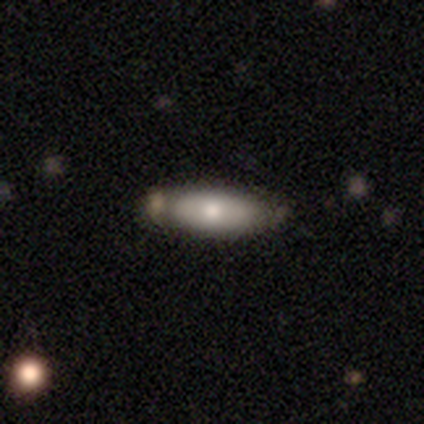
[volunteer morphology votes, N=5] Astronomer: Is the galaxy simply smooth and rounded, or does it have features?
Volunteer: smooth — 80%.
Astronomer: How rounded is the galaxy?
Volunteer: cigar-shaped — 75%.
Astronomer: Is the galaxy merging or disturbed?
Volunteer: none — 80%.